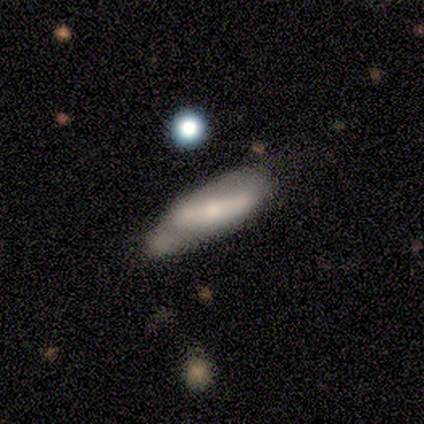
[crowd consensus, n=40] Morphology: type=smooth (48%); roundness=cigar-shaped (58%); merging=minor disturbance (41%).